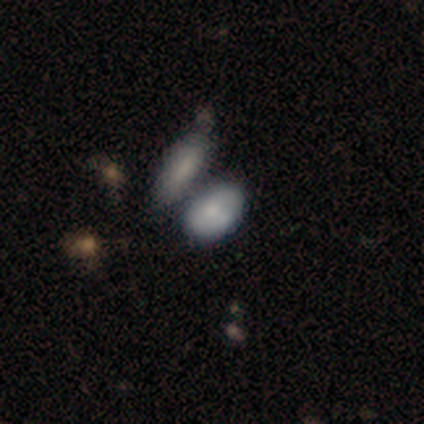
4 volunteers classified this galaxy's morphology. smooth 100%, featured or disk 0%, star or artifact 0%. Down the decision tree: how rounded — in between (100%); merging — merger (50%).